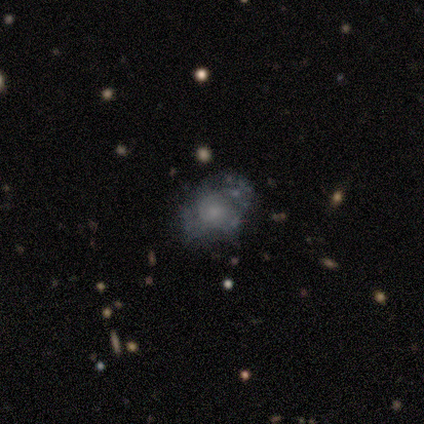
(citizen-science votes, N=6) A smooth galaxy with no disk features (50%) that is in between round and cigar-shaped (67%). Merging: none (40%, tied with minor disturbance).